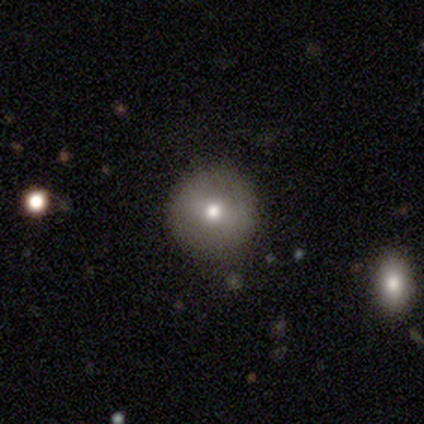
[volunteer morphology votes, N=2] This appears to be a smooth galaxy with no disk features (50%, tied with featured or disk) that is round (100%). Merging: none (100%).